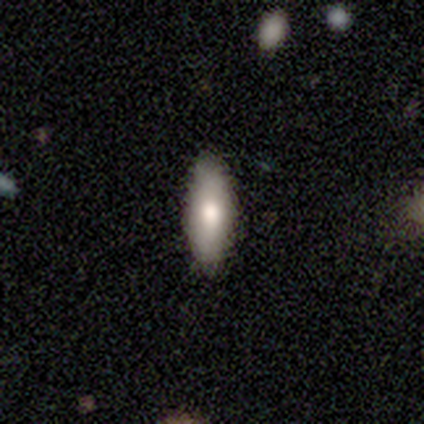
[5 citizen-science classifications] Smooth or featured?
  - smooth: 60% *
  - featured or disk: 20%
  - star or artifact: 20%
How rounded?
  - in between: 67% *
  - cigar-shaped: 33%
  - round: 0%
Merging?
  - none: 75% *
  - minor disturbance: 25%
  - major disturbance: 0%
  - merger: 0%